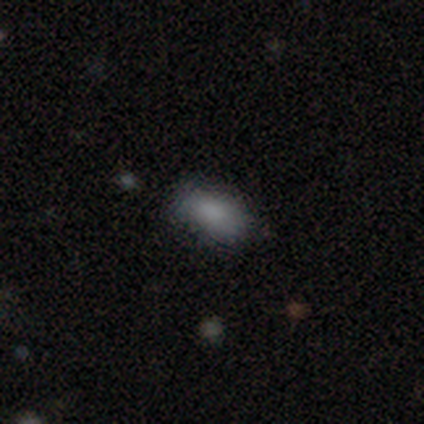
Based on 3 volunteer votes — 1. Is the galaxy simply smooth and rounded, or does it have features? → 100% smooth, 0% featured or disk, 0% star or artifact.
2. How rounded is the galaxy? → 100% in between, 0% round, 0% cigar-shaped.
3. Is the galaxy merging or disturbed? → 100% none, 0% minor disturbance, 0% major disturbance, 0% merger.